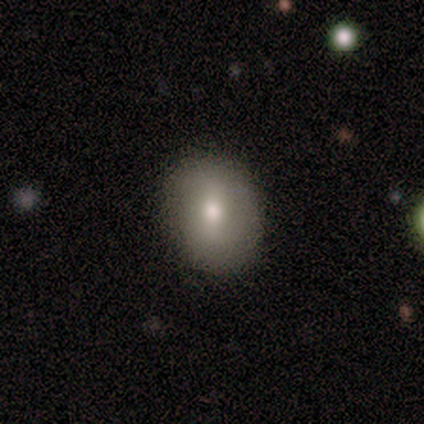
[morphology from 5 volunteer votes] smooth 80%, featured or disk 20%, star or artifact 0%. Down the decision tree: how rounded — round (75%); merging — none (100%).